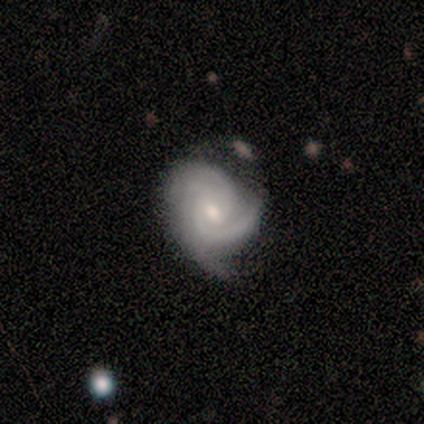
Overall: featured or disk (100%). Edge-on disk: no (100%). Bar: no (80%). Spiral arms: yes (100%). Spiral arm count: 3 (80%). Spiral winding: tight (40%, tied with medium). Bulge size: small (60%; moderate 40%). Merging: none (80%).